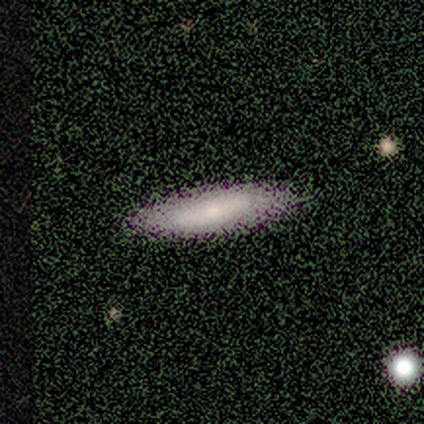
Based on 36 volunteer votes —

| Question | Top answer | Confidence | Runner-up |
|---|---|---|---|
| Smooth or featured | smooth | 78% | featured or disk (22%) |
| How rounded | cigar-shaped | 64% | in between (36%) |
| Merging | none | 53% | minor disturbance (8%) |